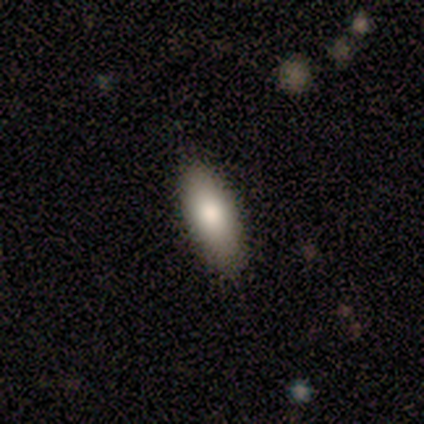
smooth-or-featured: smooth: 92% | featured or disk: 6% | star or artifact: 3%
  how-rounded: in between: 76% | cigar-shaped: 24% | round: 0%
  merging: none: 83% | minor disturbance: 17% | major disturbance: 0% | merger: 0%